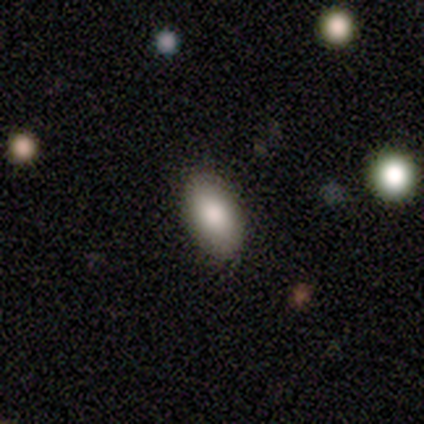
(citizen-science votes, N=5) Overall: smooth (100%). How rounded: in between (100%). Merging: none (80%).